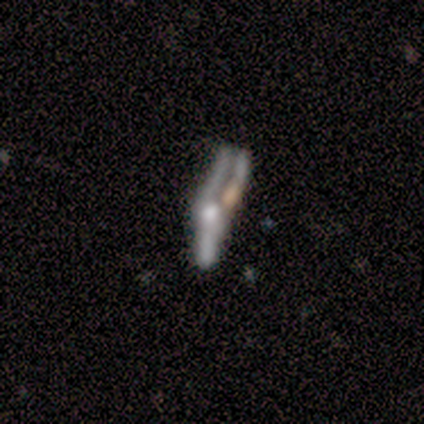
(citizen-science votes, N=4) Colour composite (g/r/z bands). It shows a featured or disk galaxy (75%) viewed edge-on (67%) with a rounded central bulge (100%). Merging: major disturbance (75%).